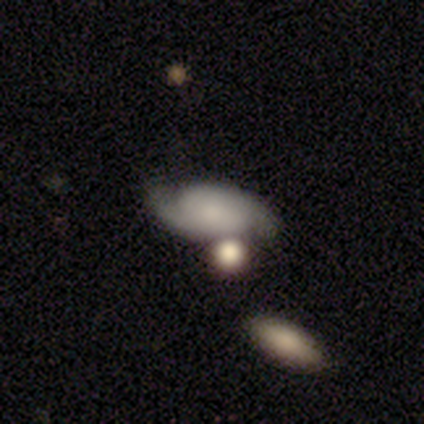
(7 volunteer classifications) Smooth or featured? 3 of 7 (43%, tied with featured or disk) said smooth. How rounded? 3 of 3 (100%) said in between. Merging? 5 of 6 (83%) said none.